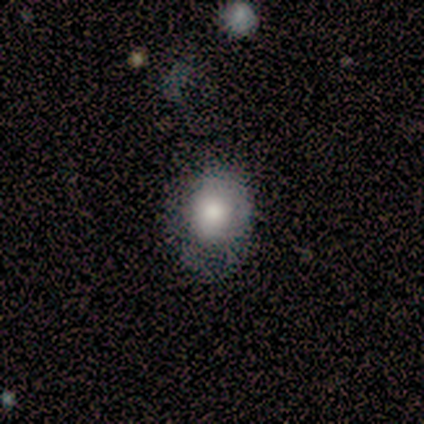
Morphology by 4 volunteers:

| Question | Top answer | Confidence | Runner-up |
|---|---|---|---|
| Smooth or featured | smooth | 100% | — |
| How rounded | round | 75% | in between (25%) |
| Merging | none | 50% | minor disturbance (25%) |